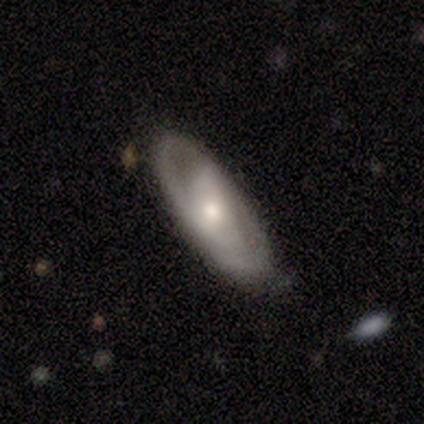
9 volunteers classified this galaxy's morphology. smooth-or-featured: featured or disk: 78% | smooth: 11% | star or artifact: 11%
  disk-edge-on: no: 100% | yes: 0%
    bar: no: 71% | weak: 29% | strong: 0%
    has-spiral-arms: no: 57% | yes: 43%
    bulge-size: small: 57% | moderate: 43% | dominant: 0% | large: 0% | none: 0%
  merging: none: 62% | minor disturbance: 25% | major disturbance: 12% | merger: 0%